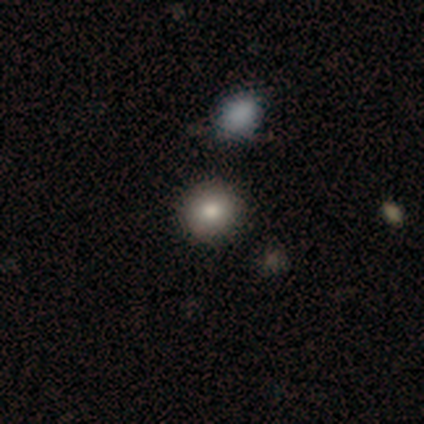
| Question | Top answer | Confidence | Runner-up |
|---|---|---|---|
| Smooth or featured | smooth | 89% | featured or disk (11%) |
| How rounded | round | 100% | — |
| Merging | none | 100% | — |